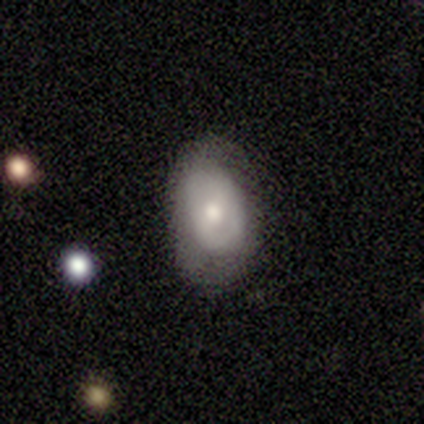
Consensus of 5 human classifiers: Overall: featured or disk (60%; smooth 40%). Edge-on disk: no (67%; yes 33%). Bar: weak (50%, tied with no). Spiral arms: no (100%). Bulge size: moderate (100%). Merging: minor disturbance (60%; none 40%).